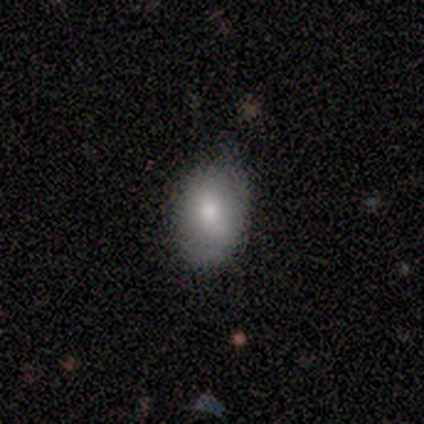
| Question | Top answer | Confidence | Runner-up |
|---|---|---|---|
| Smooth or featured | smooth | 80% | featured or disk (20%) |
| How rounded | in between | 100% | — |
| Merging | none | 60% | minor disturbance (40%) |